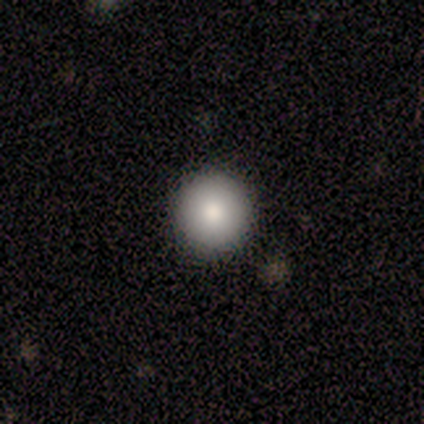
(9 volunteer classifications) Consensus on every question: smooth or featured — smooth (100%); how rounded — round (100%); merging — none (100%).